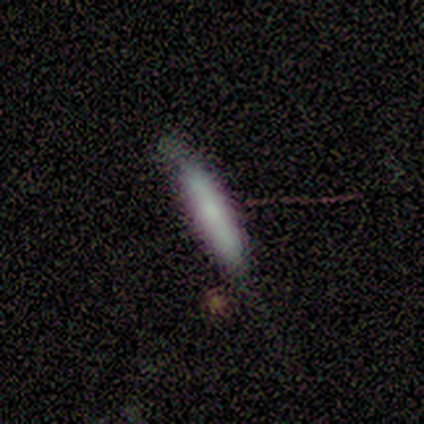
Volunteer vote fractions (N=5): Smooth or featured: smooth — 100%
How rounded: cigar-shaped — 100%
Merging: none — 80% (minor disturbance — 20%)